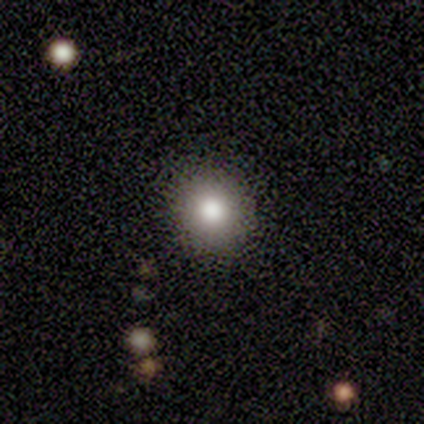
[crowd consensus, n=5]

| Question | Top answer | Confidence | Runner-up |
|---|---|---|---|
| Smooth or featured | smooth | 80% | star or artifact (20%) |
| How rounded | round | 100% | — |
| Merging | none | 100% | — |